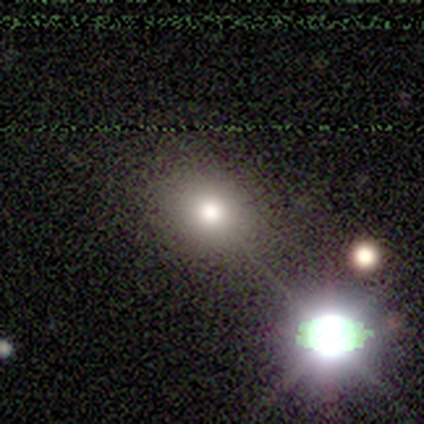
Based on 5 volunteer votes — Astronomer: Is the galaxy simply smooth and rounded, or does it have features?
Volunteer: smooth — 60% (runner-up: star or artifact, 40%).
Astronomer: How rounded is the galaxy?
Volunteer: round — 67%.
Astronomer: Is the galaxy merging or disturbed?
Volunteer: none — 100%.